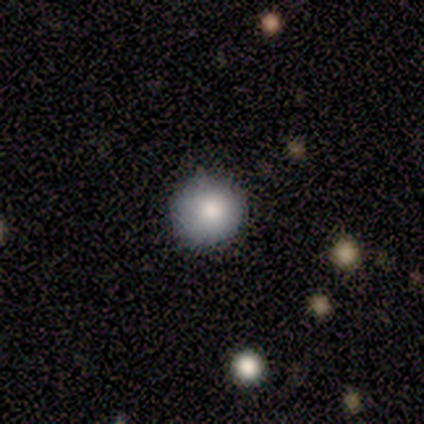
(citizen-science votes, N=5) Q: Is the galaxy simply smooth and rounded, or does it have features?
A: smooth — 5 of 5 (100%).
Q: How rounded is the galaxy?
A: round — 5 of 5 (100%).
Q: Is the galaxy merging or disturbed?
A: none — 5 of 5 (100%).